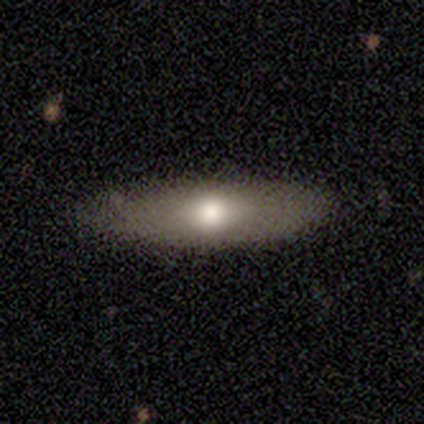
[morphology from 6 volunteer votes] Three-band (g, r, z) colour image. It shows a smooth galaxy with no disk features (100%) that is in between round and cigar-shaped (50%, tied with cigar-shaped). Merging: none (67%).